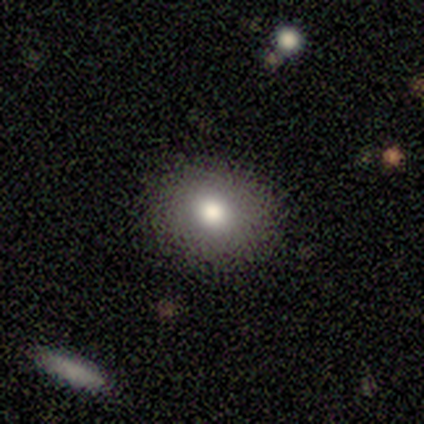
This is likely a smooth galaxy (78%). How rounded: likely round (62%). Merging: clearly none (85%).